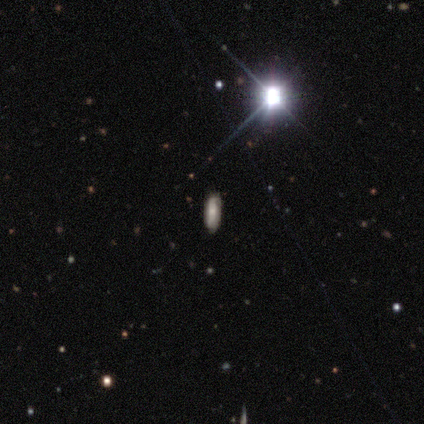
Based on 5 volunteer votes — A smooth galaxy with no disk features (60%) that is in between round and cigar-shaped (100%). Merging: none (100%).